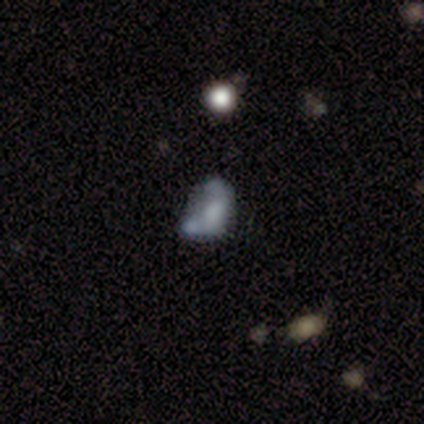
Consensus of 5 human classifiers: This is clearly a featured or disk galaxy (80%). It is clearly not viewed edge-on (100%). Bar: clearly no (100%). Spiral arm pattern: clearly no (100%). Central bulge: marginally dominant (25%, tied with large, moderate and none). Merging: possibly none (50%).